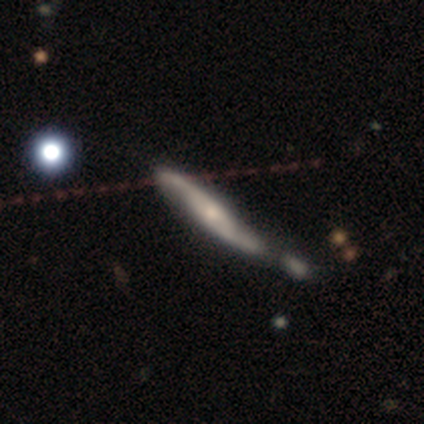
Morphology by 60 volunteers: Volunteers were most divided on "merging": none: 33%, minor disturbance: 29%, merger: 29%, major disturbance: 9%. Remaining: spiral arm count — 2 (90%); bar — no (84%); spiral arms — yes (84%); smooth or featured — featured or disk (70%); spiral winding — loose (62%); edge-on disk — no (60%); bulge size — small (48%).